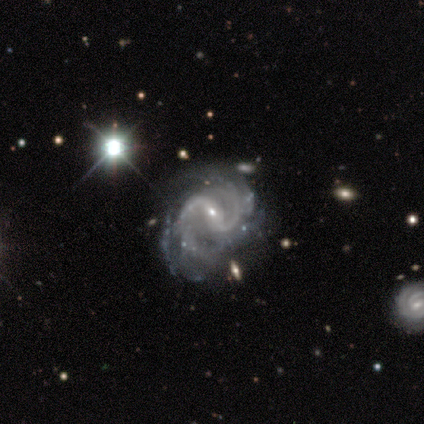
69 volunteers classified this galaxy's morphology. A featured or disk galaxy (90%) with a weak bar (47%), 2 (79%) medium (69%) spiral arms (98%) and a small central bulge (81%). Merging: none (28%).